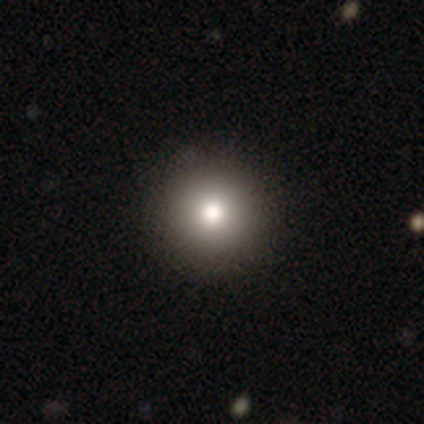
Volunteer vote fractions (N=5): Smooth or featured: smooth — 80% (star or artifact — 20%)
How rounded: round — 75% (in between — 25%)
Merging: none — 75% (minor disturbance — 25%)